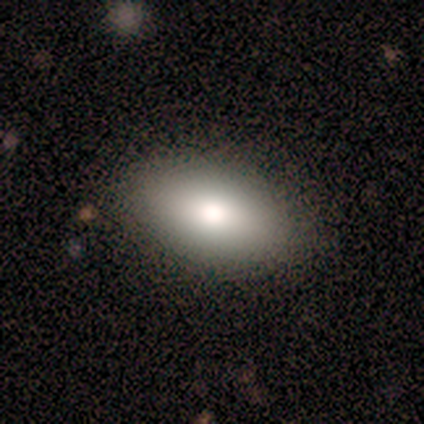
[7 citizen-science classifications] Smooth or featured?
  - smooth: 71% *
  - featured or disk: 14%
  - star or artifact: 14%
How rounded?
  - in between: 100% *
  - round: 0%
  - cigar-shaped: 0%
Merging?
  - none: 100% *
  - minor disturbance: 0%
  - major disturbance: 0%
  - merger: 0%